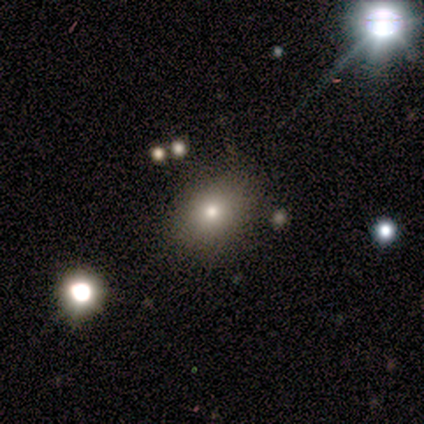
Smooth or featured: smooth — 80% (star or artifact — 20%)
How rounded: round — 100%
Merging: none — 75% (major disturbance — 25%)